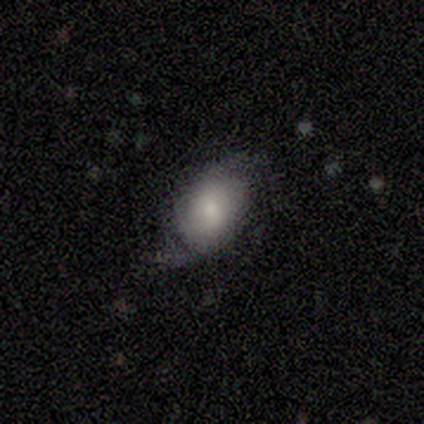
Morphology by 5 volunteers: Volunteers were most divided on "bulge size": moderate: 50%, large: 25%, small: 25%, dominant: 0%, none: 0%. More confident: edge-on disk — no (100%); smooth or featured — featured or disk (80%); merging — none (80%); bar — no (75%); spiral arms — yes (75%); spiral winding — medium (67%); spiral arm count — 2 (67%).